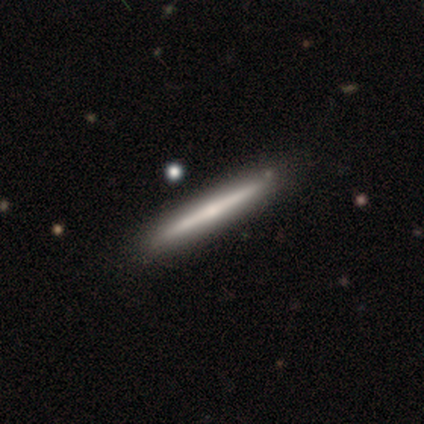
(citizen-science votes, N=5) A smooth galaxy with no disk features (80%) that is cigar-shaped (100%).

Vote fractions:
- Smooth or featured? smooth: 80% / star or artifact: 20% / featured or disk: 0%
- How rounded? cigar-shaped: 100% / round: 0% / in between: 0%
- Merging? none: 75% / minor disturbance: 25% / major disturbance: 0% / merger: 0%